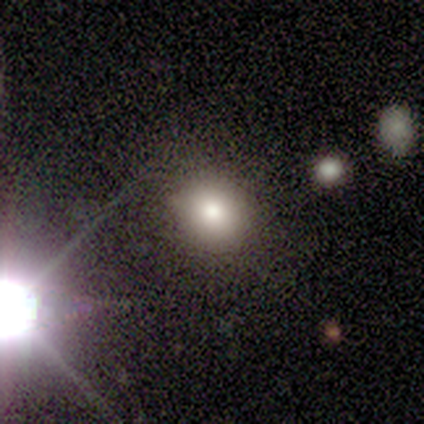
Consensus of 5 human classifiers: Morphology: type=star or artifact (60%).